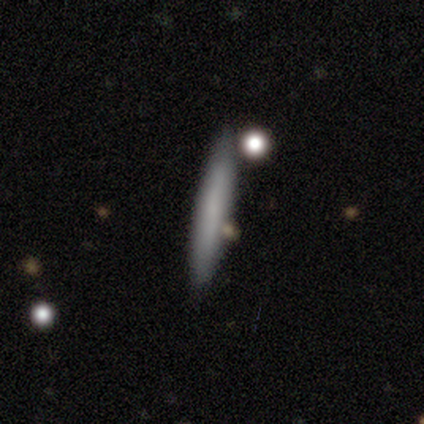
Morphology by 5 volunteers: type=smooth (80%); roundness=cigar-shaped (100%); merging=none (80%).